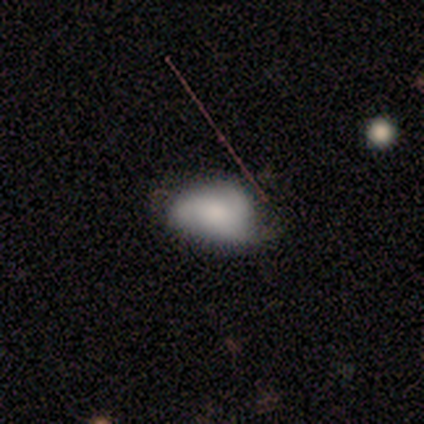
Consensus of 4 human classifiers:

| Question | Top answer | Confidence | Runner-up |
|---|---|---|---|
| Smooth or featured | featured or disk | 75% | star or artifact (25%) |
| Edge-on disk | no | 100% | — |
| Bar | no | 67% | weak (33%) |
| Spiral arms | yes | 100% | — |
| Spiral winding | loose | 67% | medium (33%) |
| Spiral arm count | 3 | 67% | can't tell (33%) |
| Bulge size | small | 67% | moderate (33%) |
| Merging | none | 100% | — |